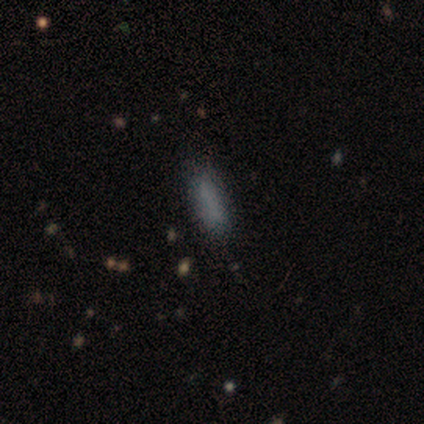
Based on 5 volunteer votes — This appears to be a smooth galaxy with no disk features (100%) that is cigar-shaped (60%). Merging: none (80%).